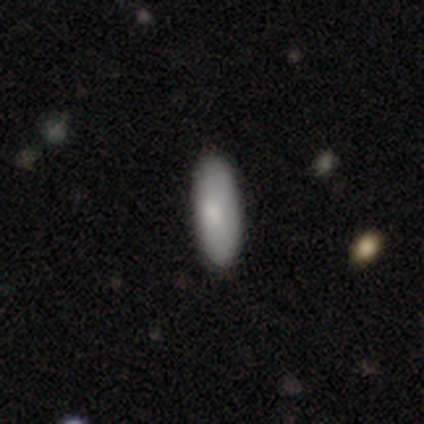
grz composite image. It shows a smooth galaxy with no disk features (90%) that is in between round and cigar-shaped (71%). Merging: none (89%).